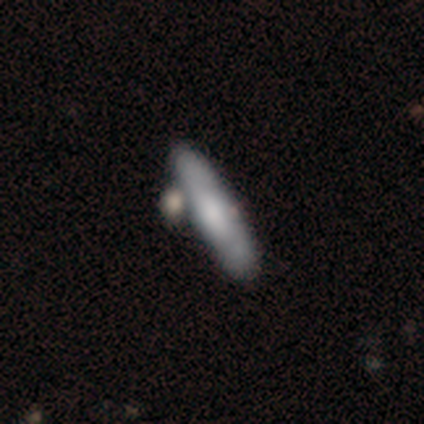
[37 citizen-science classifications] This appears to be a smooth galaxy with no disk features (49%) that is cigar-shaped (83%). Merging: none (49%).